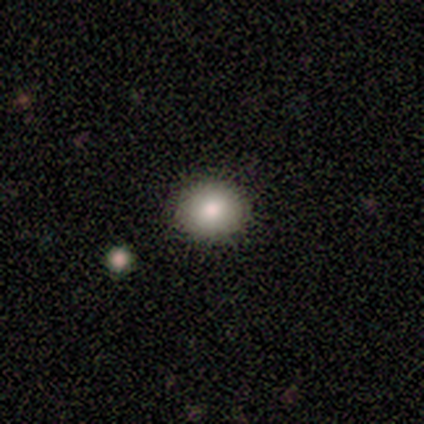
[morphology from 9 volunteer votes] This is likely a smooth galaxy (78%). How rounded: clearly round (86%). Merging: clearly none (100%).